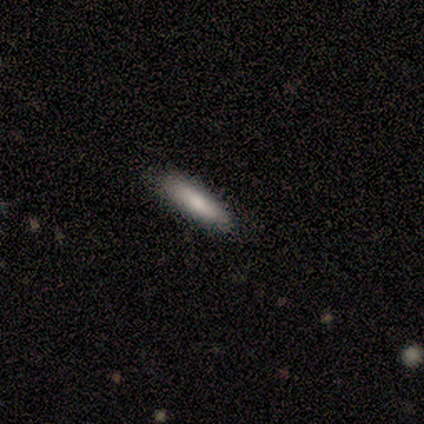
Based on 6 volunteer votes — Volunteers were most divided on "how rounded": cigar-shaped: 80%, in between: 20%, round: 0%. More confident: smooth or featured — smooth (83%); merging — none (83%).